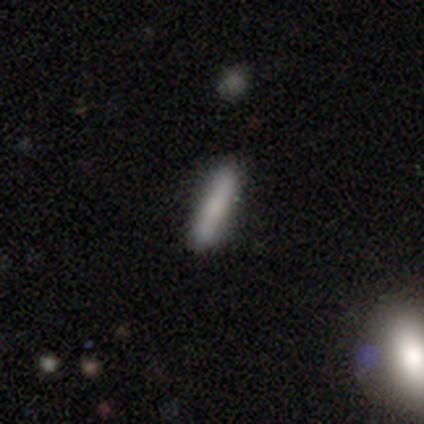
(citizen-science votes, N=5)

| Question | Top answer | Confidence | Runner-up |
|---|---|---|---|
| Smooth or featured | smooth | 100% | — |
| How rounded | cigar-shaped | 100% | — |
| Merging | none | 80% | minor disturbance (20%) |